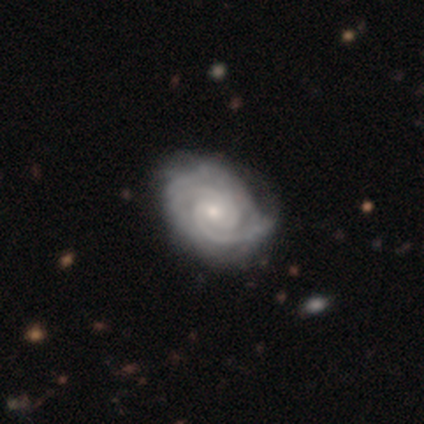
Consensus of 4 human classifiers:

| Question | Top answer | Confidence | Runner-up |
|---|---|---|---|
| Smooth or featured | featured or disk | 75% | star or artifact (25%) |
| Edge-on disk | no | 100% | — |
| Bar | no | 67% | weak (33%) |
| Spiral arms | yes | 100% | — |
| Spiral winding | tight | 100% | — |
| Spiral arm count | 3 | 67% | 4 (33%) |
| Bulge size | moderate | 100% | — |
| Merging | none | 33% | tied: minor disturbance (33%), major disturbance (33%) |